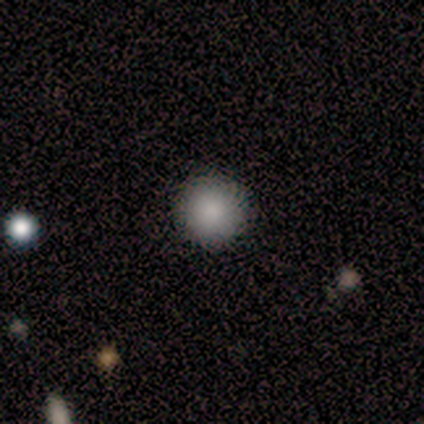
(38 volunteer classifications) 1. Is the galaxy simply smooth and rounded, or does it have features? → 89% smooth, 5% featured or disk, 5% star or artifact.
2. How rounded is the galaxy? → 97% round, 3% in between, 0% cigar-shaped.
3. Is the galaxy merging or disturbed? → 67% none, 3% merger, 0% minor disturbance, 0% major disturbance.